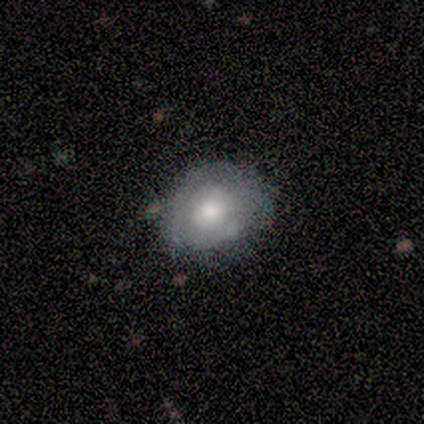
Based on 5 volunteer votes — A featured or disk galaxy (60%) with no bar (100%), 2 (50%, tied with can't tell) tight (50%, tied with medium) spiral arms (67%) and a moderate central bulge (100%). Merging: none (80%).